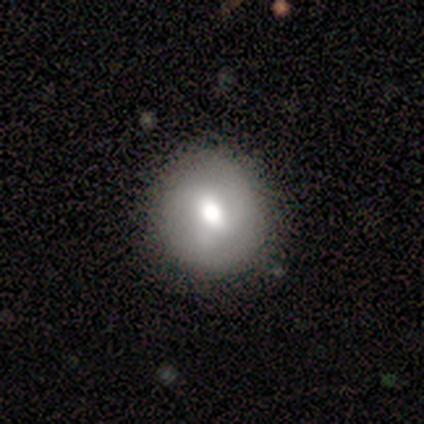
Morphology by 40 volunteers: A smooth galaxy with no disk features (65%) that is round (92%).

Vote fractions:
- Smooth or featured? smooth: 65% / featured or disk: 30% / star or artifact: 5%
- How rounded? round: 92% / in between: 8% / cigar-shaped: 0%
- Merging? none: 82% / minor disturbance: 13% / major disturbance: 5% / merger: 0%